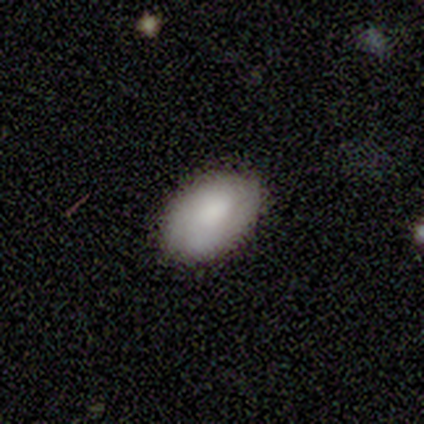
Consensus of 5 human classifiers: smooth 100%, featured or disk 0%, star or artifact 0%. Down the decision tree: how rounded — in between (100%); merging — none (100%).